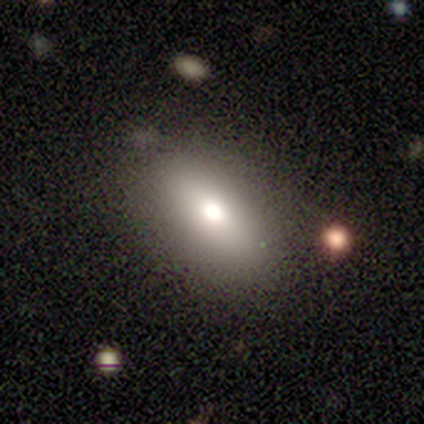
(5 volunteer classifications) A smooth galaxy with no disk features (60%) that is in between round and cigar-shaped (67%). Merging: none (100%).